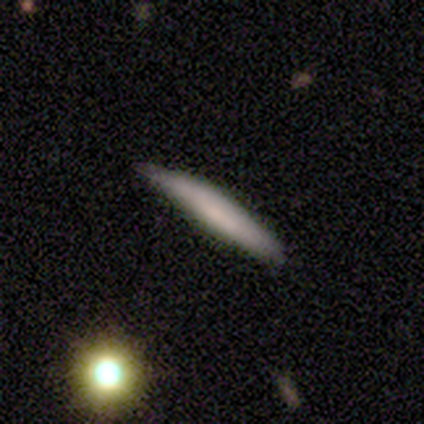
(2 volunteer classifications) Smooth or featured?
  - smooth: 50% * (tied)
  - featured or disk: 50% * (tied)
  - star or artifact: 0%
How rounded?
  - cigar-shaped: 100% *
  - round: 0%
  - in between: 0%
Merging?
  - none: 50% * (tied)
  - minor disturbance: 50% * (tied)
  - major disturbance: 0%
  - merger: 0%